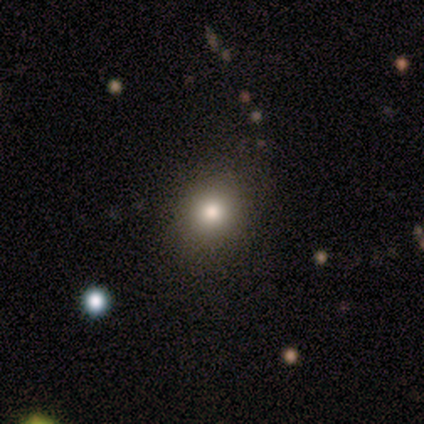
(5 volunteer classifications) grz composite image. It shows a smooth galaxy with no disk features (60%) that is round (67%). Merging: none (75%).